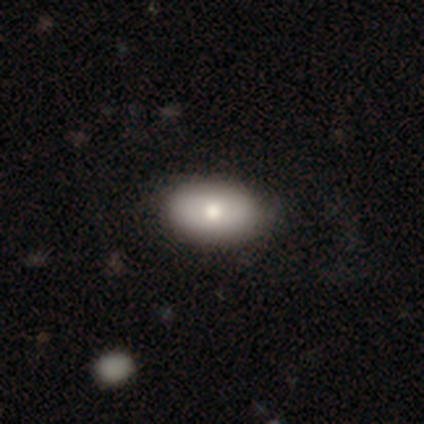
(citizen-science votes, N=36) Smooth or featured?
  - smooth: 78% *
  - featured or disk: 19%
  - star or artifact: 3%
How rounded?
  - in between: 100% *
  - round: 0%
  - cigar-shaped: 0%
Merging?
  - none: 77% *
  - minor disturbance: 20%
  - major disturbance: 3%
  - merger: 0%